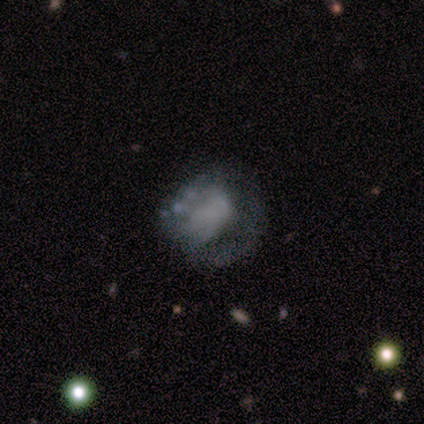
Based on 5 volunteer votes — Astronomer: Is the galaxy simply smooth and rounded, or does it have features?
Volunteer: featured or disk — 60%.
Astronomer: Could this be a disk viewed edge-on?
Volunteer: no — 100%.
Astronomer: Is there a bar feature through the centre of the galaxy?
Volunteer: no — 100%.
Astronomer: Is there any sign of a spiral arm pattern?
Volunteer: no — 100%.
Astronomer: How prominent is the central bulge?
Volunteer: none — 67%.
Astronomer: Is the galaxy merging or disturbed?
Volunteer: major disturbance — 75%.